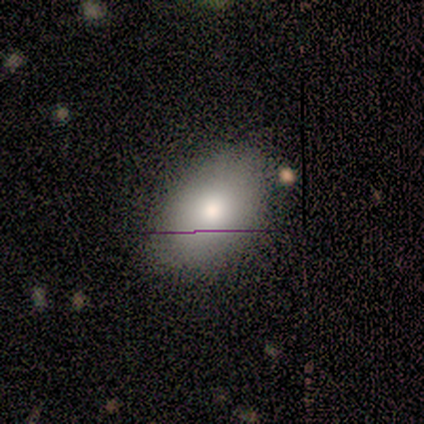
A smooth galaxy with no disk features (100%) that is in between round and cigar-shaped (100%). Merging: minor disturbance (60%).